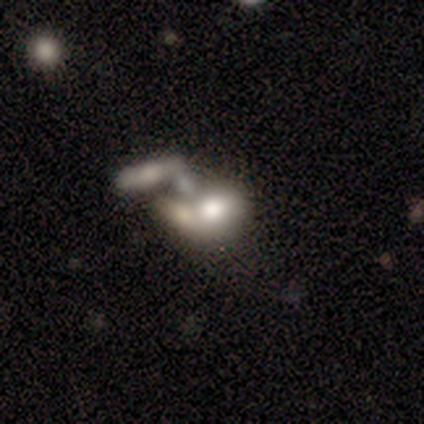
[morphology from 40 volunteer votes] smooth-or-featured: featured or disk: 50% | smooth: 48% | star or artifact: 2%
  disk-edge-on: no: 100% | yes: 0%
    bar: no: 80% | weak: 20% | strong: 0%
    has-spiral-arms: no: 100% | yes: 0%
    bulge-size: large: 45% | moderate: 25% | none: 20% | small: 10% | dominant: 0%
  merging: merger: 74% | none: 18% | major disturbance: 8% | minor disturbance: 0%